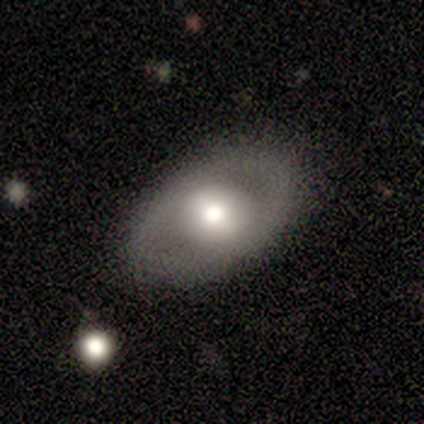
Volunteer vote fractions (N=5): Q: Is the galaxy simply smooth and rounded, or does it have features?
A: featured or disk — 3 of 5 (60%).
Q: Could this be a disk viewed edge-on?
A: no — 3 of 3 (100%).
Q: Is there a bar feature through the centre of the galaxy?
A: no — 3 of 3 (100%).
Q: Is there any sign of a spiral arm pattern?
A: no — 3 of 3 (100%).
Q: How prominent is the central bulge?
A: moderate — 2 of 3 (67%).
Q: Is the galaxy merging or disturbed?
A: none — 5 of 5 (100%).